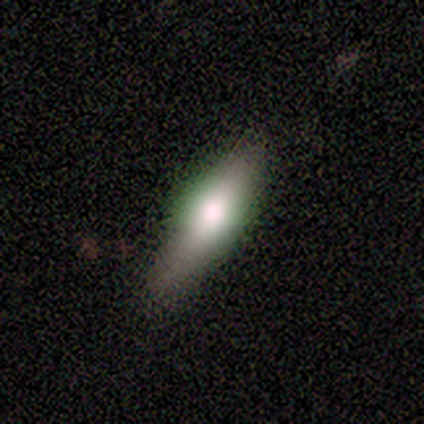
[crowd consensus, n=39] Smooth or featured? 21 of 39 (54%) said smooth. How rounded? 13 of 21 (62%) said cigar-shaped. Merging? 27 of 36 (75%) said none.